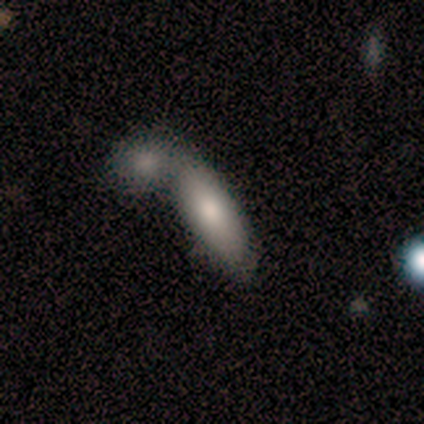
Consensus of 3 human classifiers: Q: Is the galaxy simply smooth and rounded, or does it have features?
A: smooth — 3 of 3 (100%).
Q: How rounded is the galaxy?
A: in between — 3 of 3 (100%).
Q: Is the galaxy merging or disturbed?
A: merger — 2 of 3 (67%).